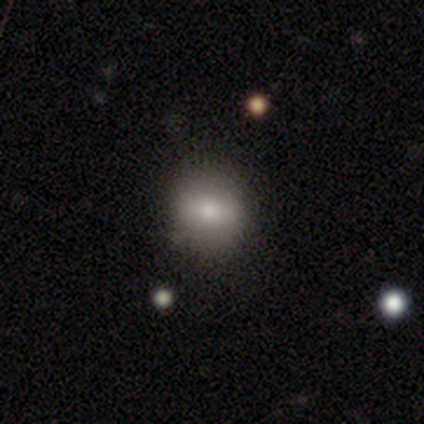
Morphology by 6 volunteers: Q: Smooth or featured?
A: smooth (67%); runner-up: featured or disk (33%)
Q: How rounded?
A: round (75%); runner-up: in between (25%)
Q: Merging?
A: none (100%)